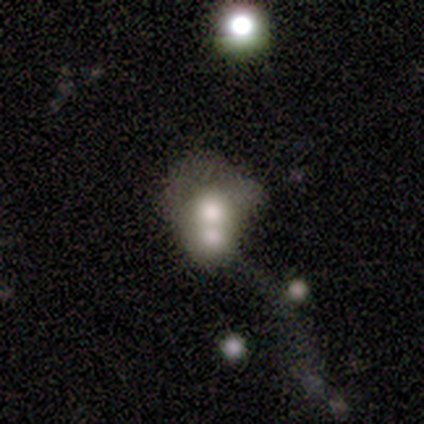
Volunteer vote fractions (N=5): Smooth or featured? 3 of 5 (60%) said smooth. How rounded? 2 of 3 (67%) said round. Merging? 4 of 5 (80%) said merger.